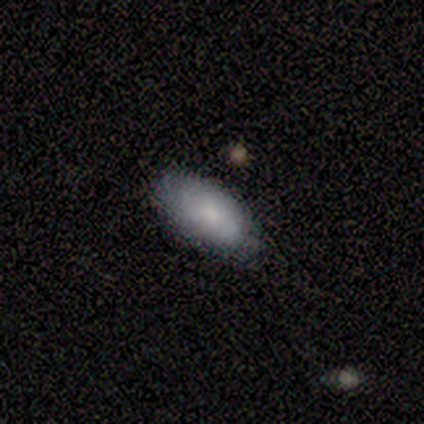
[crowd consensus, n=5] Q: Smooth or featured?
A: smooth (80%); runner-up: featured or disk (20%)
Q: How rounded?
A: in between (100%)
Q: Merging?
A: none (80%); runner-up: minor disturbance (20%)